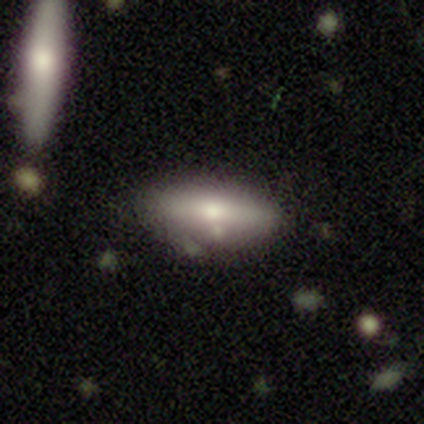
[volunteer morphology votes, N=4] This appears to be a smooth galaxy with no disk features (75%) that is in between round and cigar-shaped (67%). Merging: none (33%, tied with minor disturbance and major disturbance).